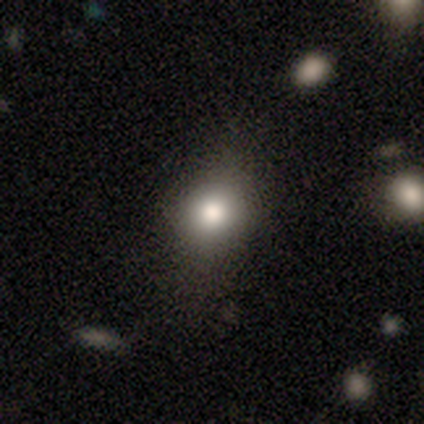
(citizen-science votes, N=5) smooth-or-featured: smooth: 80% | star or artifact: 20% | featured or disk: 0%
  how-rounded: round: 75% | in between: 25% | cigar-shaped: 0%
  merging: none: 75% | minor disturbance: 25% | major disturbance: 0% | merger: 0%